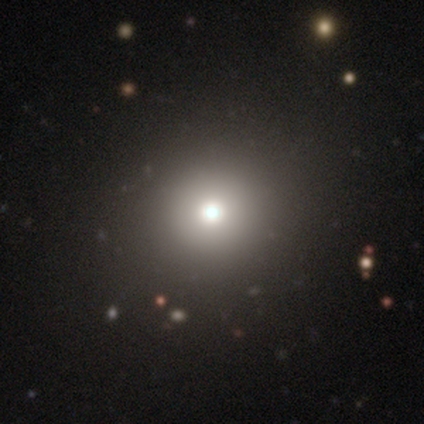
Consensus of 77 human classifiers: smooth 73%, featured or disk 16%, star or artifact 12%. Down the decision tree: how rounded — round (98%); merging — none (51%).